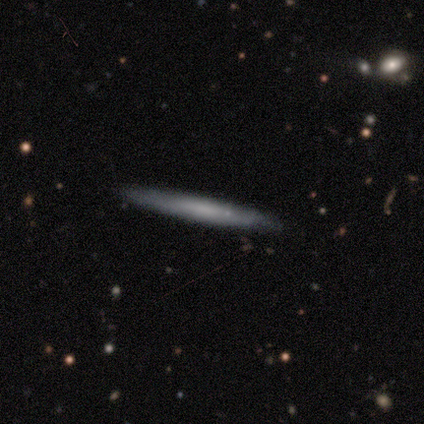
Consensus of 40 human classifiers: Smooth or featured: smooth — 48% (featured or disk — 45%)
How rounded: cigar-shaped — 100%
Merging: none — 86% (minor disturbance — 11%)